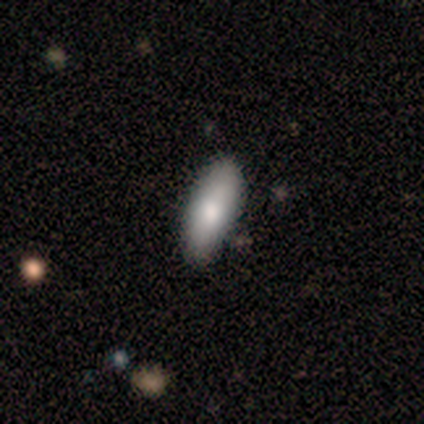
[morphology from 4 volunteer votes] Smooth or featured?
  - smooth: 50% * (tied)
  - featured or disk: 50% * (tied)
  - star or artifact: 0%
How rounded?
  - round: 50% * (tied)
  - cigar-shaped: 50% * (tied)
  - in between: 0%
Merging?
  - none: 100% *
  - minor disturbance: 0%
  - major disturbance: 0%
  - merger: 0%